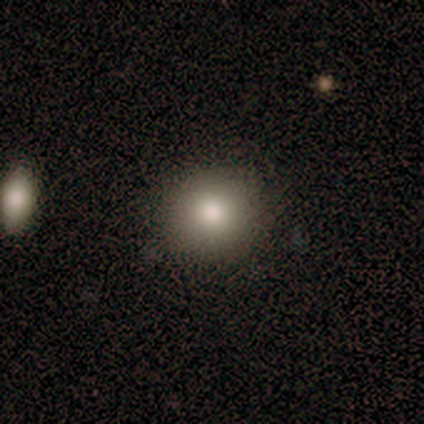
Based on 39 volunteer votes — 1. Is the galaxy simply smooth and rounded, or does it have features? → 85% smooth, 13% featured or disk, 3% star or artifact.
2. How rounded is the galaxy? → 88% round, 12% in between, 0% cigar-shaped.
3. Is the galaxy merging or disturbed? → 95% none, 5% minor disturbance, 0% major disturbance, 0% merger.